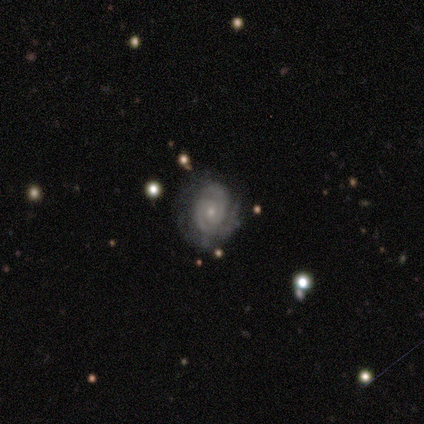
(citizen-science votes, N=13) Smooth or featured: featured or disk — 92% (smooth — 8%)
Edge-on disk: no — 100%
Bar: no — 100%
Spiral arms: yes — 100%
Spiral winding: tight — 67% (medium — 33%)
Spiral arm count: 2 — 83% (3 — 8%)
Bulge size: small — 75% (moderate — 25%)
Merging: none — 77% (minor disturbance — 23%)